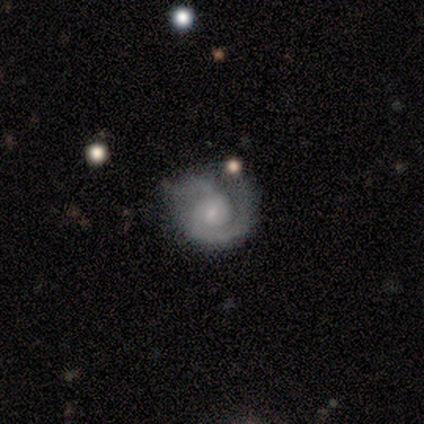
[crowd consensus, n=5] A featured or disk galaxy (80%) with no bar (50%), 2 (50%) tight (75%) spiral arms (100%) and a small central bulge (100%). Merging: none (50%).